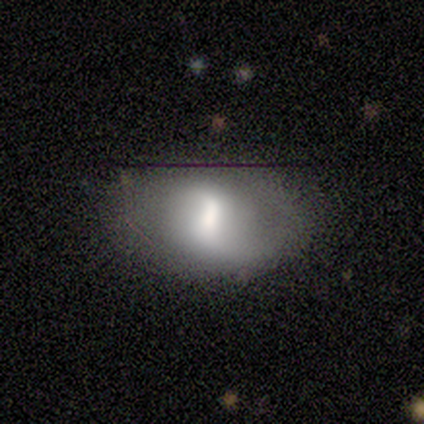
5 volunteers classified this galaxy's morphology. Overall: smooth (60%; featured or disk 20%). How rounded: in between (100%). Merging: none (50%; minor disturbance 25%).